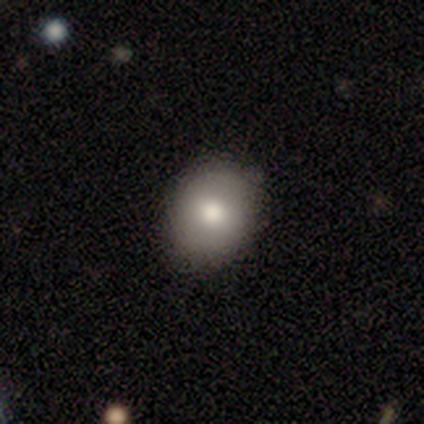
This is clearly a smooth galaxy (83%). How rounded: clearly round (80%). Merging: clearly none (100%).